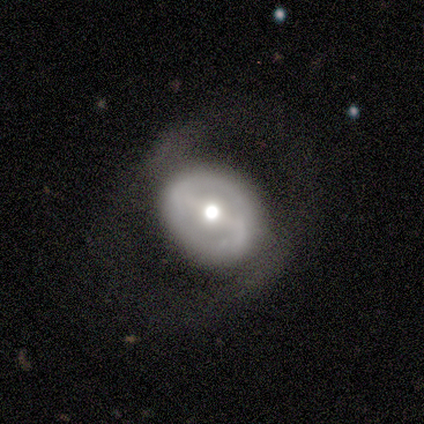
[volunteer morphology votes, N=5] type=featured or disk (100%); edge-on=no (80%); bar=weak (50%); spiral arms=yes (75%); winding=loose (67%); arm count=2 (67%); bulge=dominant (25%, tied with moderate, small and none); merging=none (40%, tied with minor disturbance).